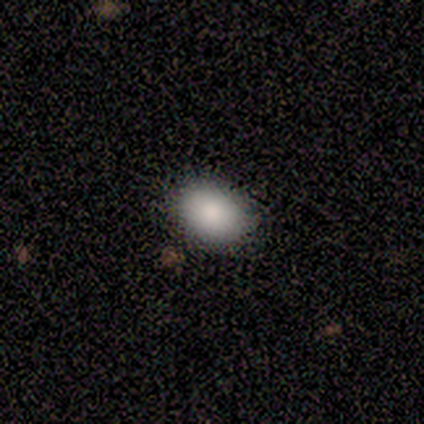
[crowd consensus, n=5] Smooth or featured? 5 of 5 (100%) said smooth. How rounded? 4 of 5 (80%) said in between. Merging? 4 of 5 (80%) said none.